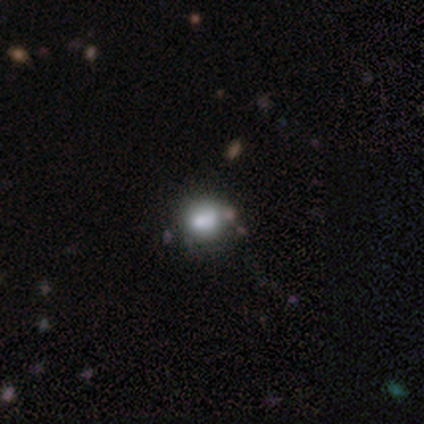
Smooth or featured? smooth (40%, tied with star or artifact)
How rounded? round (100%)
Merging? none (100%)